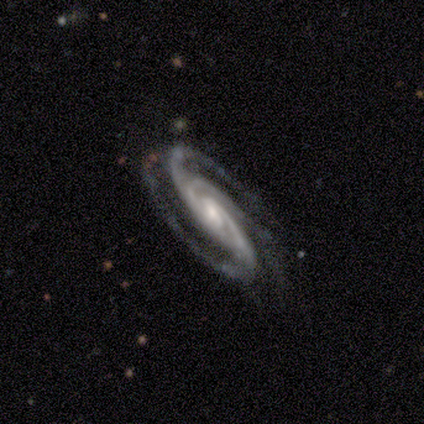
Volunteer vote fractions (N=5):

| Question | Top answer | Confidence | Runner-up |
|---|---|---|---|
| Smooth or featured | featured or disk | 80% | star or artifact (20%) |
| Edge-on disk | no | 100% | — |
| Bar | weak | 100% | — |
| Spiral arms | yes | 100% | — |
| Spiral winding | tight | 50% | tied: medium (50%) |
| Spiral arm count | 3 | 100% | — |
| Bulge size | moderate | 50% | tied: small (50%) |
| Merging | none | 75% | minor disturbance (25%) |